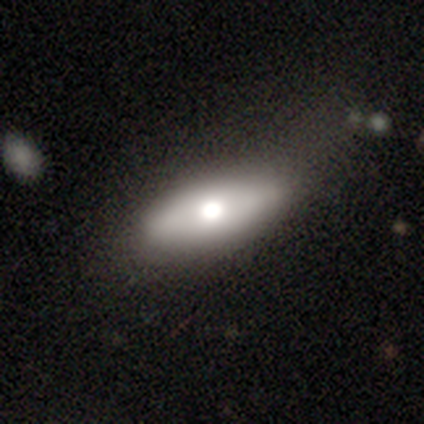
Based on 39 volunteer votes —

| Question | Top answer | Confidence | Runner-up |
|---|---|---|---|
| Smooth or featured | smooth | 49% | tied: featured or disk (49%) |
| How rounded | in between | 68% | cigar-shaped (32%) |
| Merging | none | 55% | minor disturbance (29%) |